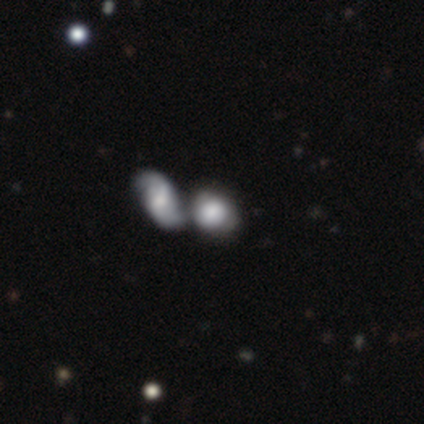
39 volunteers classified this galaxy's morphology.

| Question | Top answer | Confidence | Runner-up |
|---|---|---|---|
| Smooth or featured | smooth | 59% | featured or disk (36%) |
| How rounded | round | 61% | in between (39%) |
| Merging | merger | 62% | none (22%) |